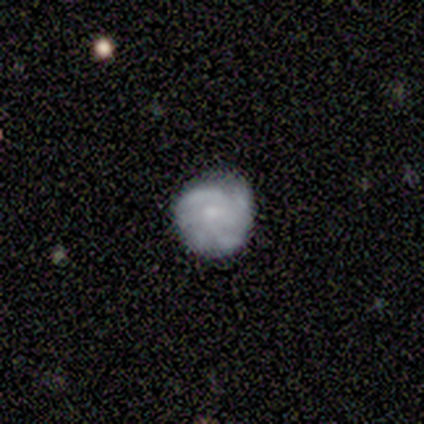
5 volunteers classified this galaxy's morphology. featured or disk 60%, smooth 40%, star or artifact 0%. Down the decision tree: edge-on disk — no (100%); bar — no (67%); spiral arms — yes (67%); spiral arm count — 2 (50%, tied with 3); spiral winding — tight (100%); bulge size — small (100%); merging — none (60%).